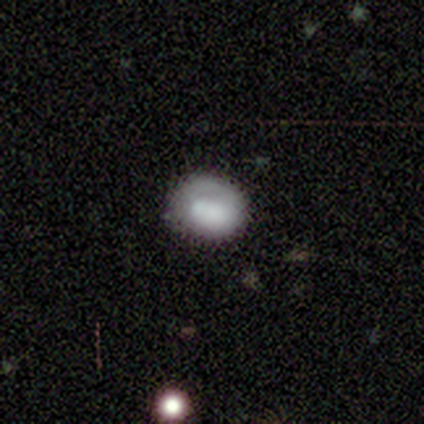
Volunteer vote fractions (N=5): Smooth or featured? smooth (80%)
How rounded? round (50%, tied with in between)
Merging? none (100%)